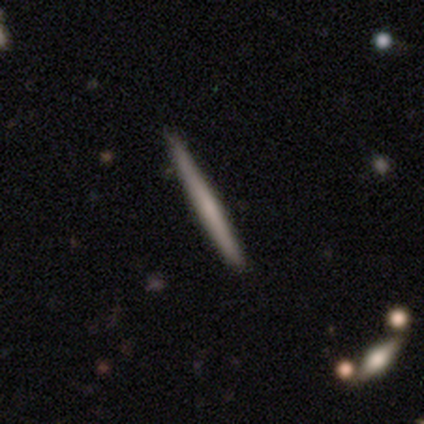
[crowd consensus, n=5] A smooth galaxy with no disk features (80%) that is cigar-shaped (100%). Merging: none (100%).